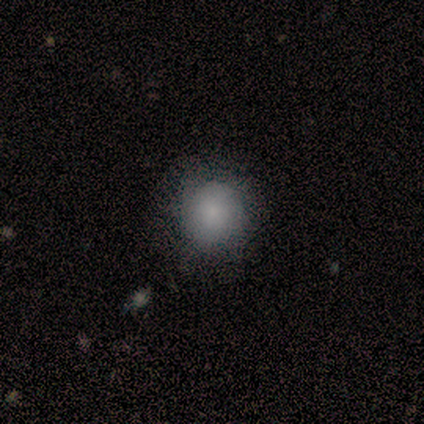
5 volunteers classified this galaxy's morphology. Smooth or featured: smooth — 100%
How rounded: round — 100%
Merging: none — 100%